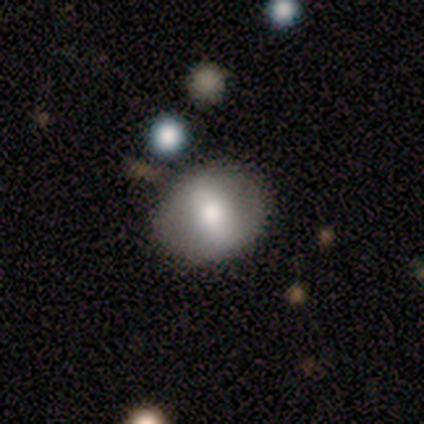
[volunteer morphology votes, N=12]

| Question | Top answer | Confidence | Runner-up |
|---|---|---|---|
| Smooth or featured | featured or disk | 67% | smooth (25%) |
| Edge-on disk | no | 100% | — |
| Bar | strong | 50% | weak (25%) |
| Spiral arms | no | 100% | — |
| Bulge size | large | 38% | tied: small (38%) |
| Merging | none | 82% | minor disturbance (9%) |